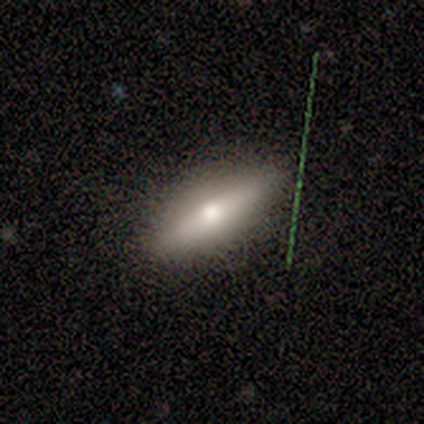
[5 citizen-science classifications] Smooth or featured: featured or disk — 60% (smooth — 40%)
Edge-on disk: yes — 67% (no — 33%)
Edge-on bulge: rounded — 100%
Merging: none — 80% (minor disturbance — 20%)